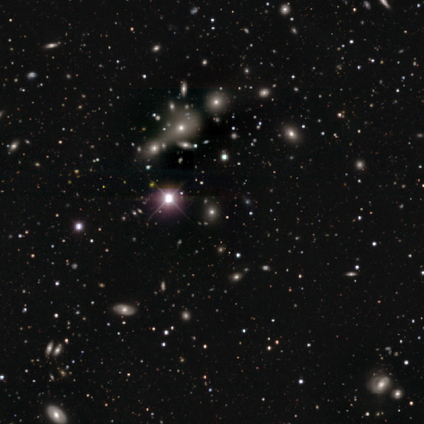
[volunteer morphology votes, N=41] Smooth or featured? 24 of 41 (59%) said star or artifact.